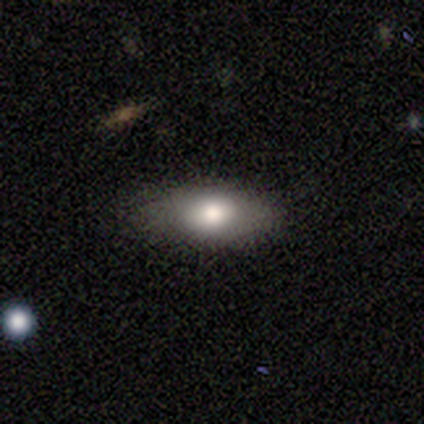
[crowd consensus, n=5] smooth_or_featured: smooth (p=0.80) [alt: featured or disk p=0.20]
how_rounded: in between (p=1.00)
merging: none (p=1.00)